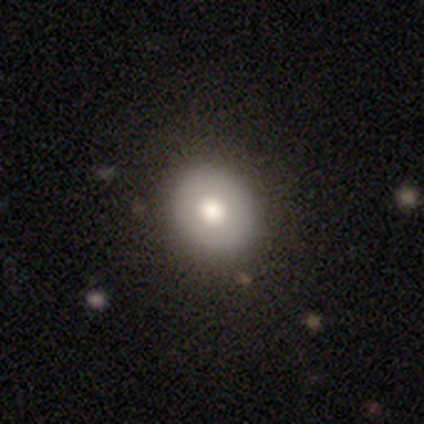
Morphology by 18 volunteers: Volunteers were most divided on "smooth or featured": smooth: 72%, featured or disk: 17%, star or artifact: 11%. More confident: merging — none (88%); how rounded — round (85%).